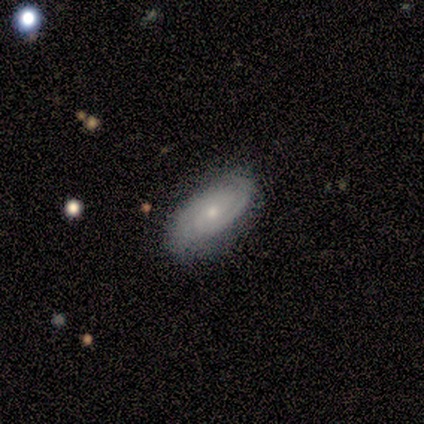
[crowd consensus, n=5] Volunteers were most divided on "smooth or featured": featured or disk: 60%, smooth: 40%, star or artifact: 0%. More confident: edge-on disk — no (100%); spiral winding — tight (100%); spiral arm count — 2 (100%); merging — none (80%); bar — no (67%); spiral arms — yes (67%); bulge size — small (67%).